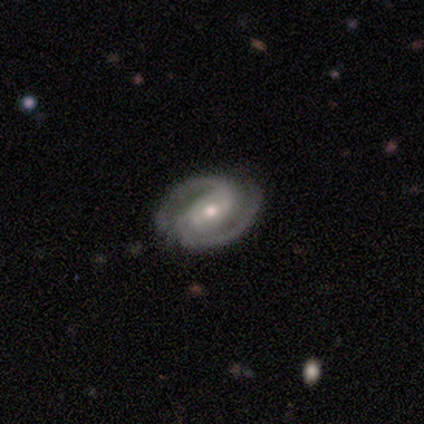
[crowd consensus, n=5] A featured or disk galaxy (100%) with no bar (60%), 2 (100%) medium (60%) spiral arms (100%) and a moderate central bulge (80%).

Vote fractions:
- Smooth or featured? featured or disk: 100% / smooth: 0% / star or artifact: 0%
- Edge-on disk? no: 100% / yes: 0%
- Bar? no: 60% / strong: 20% / weak: 20%
- Spiral arms? yes: 100% / no: 0%
- Spiral winding? medium: 60% / tight: 20% / loose: 20%
- Spiral arm count? 2: 100% / 1: 0% / 3: 0% / 4: 0% / more than 4: 0% / can't tell: 0%
- Bulge size? moderate: 80% / small: 20% / dominant: 0% / large: 0% / none: 0%
- Merging? none: 80% / minor disturbance: 20% / major disturbance: 0% / merger: 0%